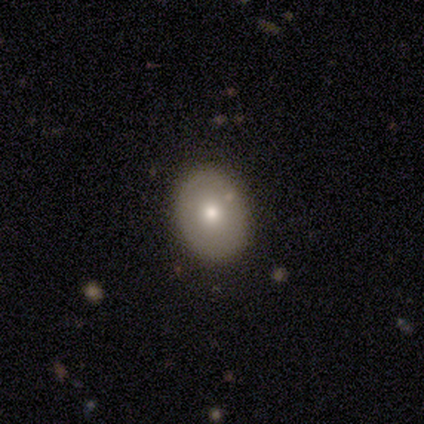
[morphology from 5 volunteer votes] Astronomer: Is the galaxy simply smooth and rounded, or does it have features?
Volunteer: smooth — 60%.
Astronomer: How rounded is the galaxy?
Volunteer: in between — 100%.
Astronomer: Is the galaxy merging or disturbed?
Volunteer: none — 100%.